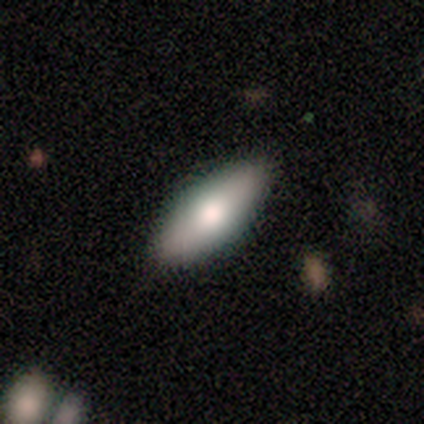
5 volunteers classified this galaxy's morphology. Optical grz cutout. It shows a smooth galaxy with no disk features (100%) that is in between round and cigar-shaped (80%). Merging: none (40%, tied with major disturbance).